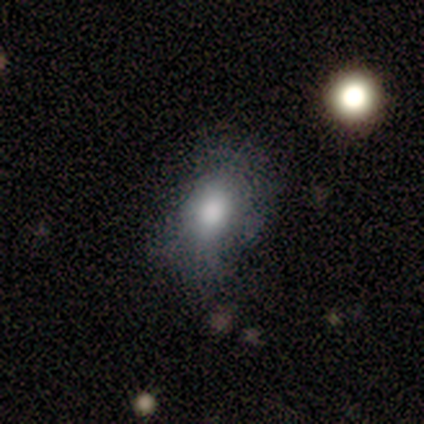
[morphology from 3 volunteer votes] Volunteers were most divided on "smooth or featured": star or artifact: 67%, smooth: 33%, featured or disk: 0%.